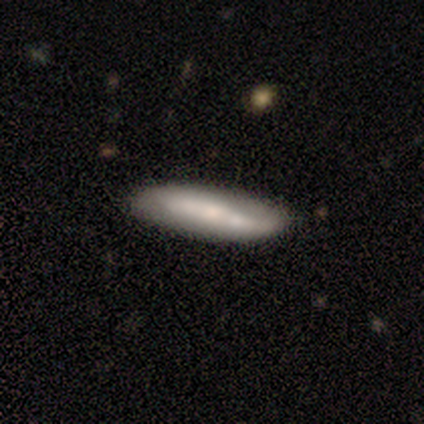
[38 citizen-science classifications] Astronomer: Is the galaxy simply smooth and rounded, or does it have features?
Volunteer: smooth — 53% (runner-up: featured or disk, 45%).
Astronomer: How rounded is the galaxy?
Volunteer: cigar-shaped — 65%.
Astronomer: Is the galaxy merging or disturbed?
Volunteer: none — 59%.